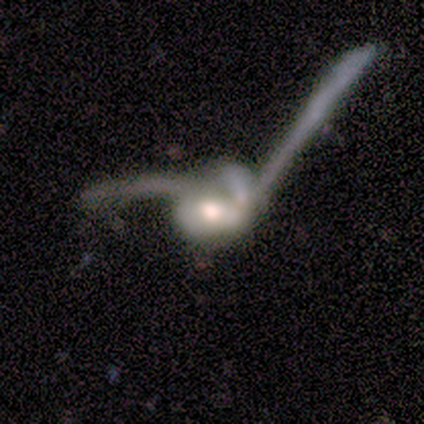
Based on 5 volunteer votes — Smooth or featured?
  - featured or disk: 80% *
  - smooth: 20%
  - star or artifact: 0%
Edge-on disk?
  - no: 75% *
  - yes: 25%
Bar?
  - no: 67% *
  - strong: 33%
  - weak: 0%
Spiral arms?
  - yes: 67% *
  - no: 33%
Spiral winding?
  - tight: 50% * (tied)
  - loose: 50% * (tied)
  - medium: 0%
Spiral arm count?
  - 2: 50% * (tied)
  - can't tell: 50% * (tied)
  - 1: 0%
  - 3: 0%
  - 4: 0%
  - more than 4: 0%
Bulge size?
  - moderate: 67% *
  - large: 33%
  - dominant: 0%
  - small: 0%
  - none: 0%
Merging?
  - merger: 80% *
  - major disturbance: 20%
  - none: 0%
  - minor disturbance: 0%